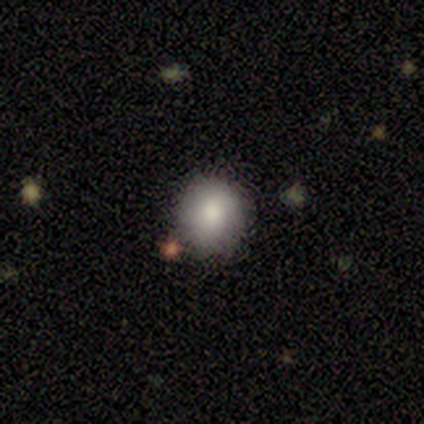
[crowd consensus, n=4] Morphology: type=smooth (75%); roundness=round (100%); merging=none (50%, tied with minor disturbance).